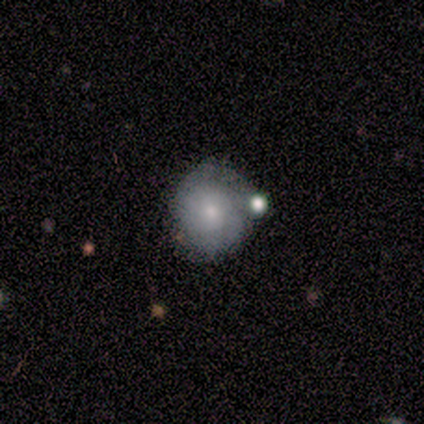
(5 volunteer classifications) Morphology: type=smooth (60%); roundness=round (100%); merging=none (100%).